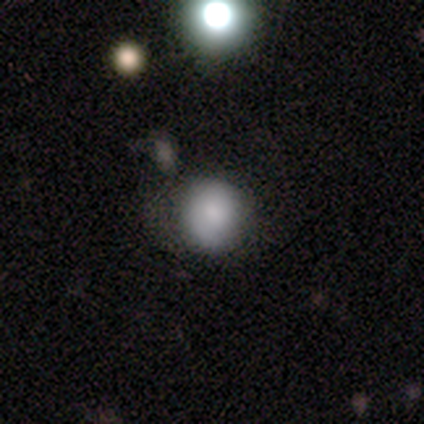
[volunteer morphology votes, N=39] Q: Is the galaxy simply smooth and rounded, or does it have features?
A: smooth — 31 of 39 (79%).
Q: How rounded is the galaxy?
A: round — 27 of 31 (87%).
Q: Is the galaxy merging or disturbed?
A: none — 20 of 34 (59%).